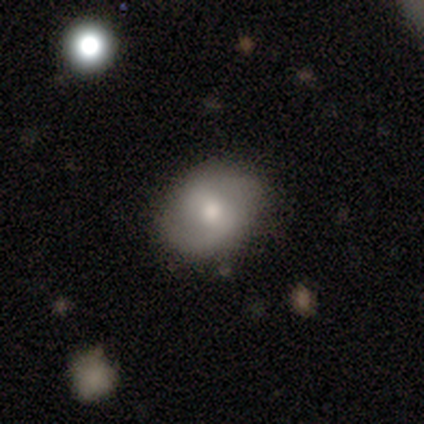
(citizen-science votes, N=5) Smooth or featured? 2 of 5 (40%, tied with featured or disk) said smooth. How rounded? 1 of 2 (50%, tied with in between) said round. Merging? 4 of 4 (100%) said none.